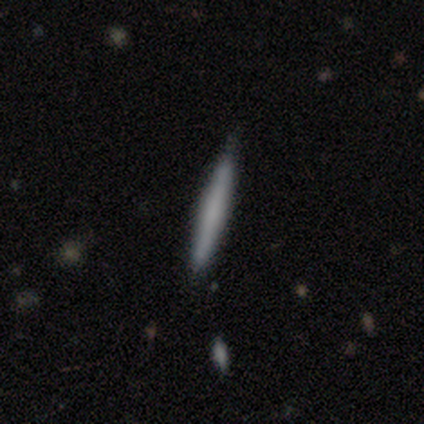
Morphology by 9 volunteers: Smooth or featured? 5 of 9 (56%) said smooth. How rounded? 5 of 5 (100%) said cigar-shaped. Merging? 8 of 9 (89%) said none.